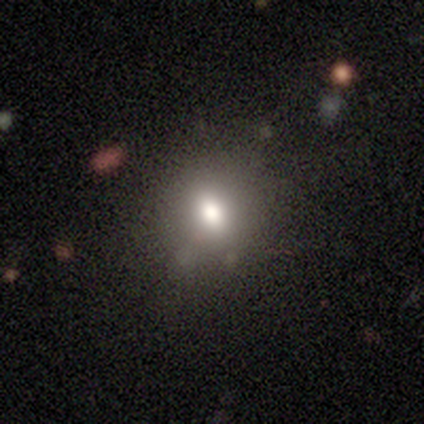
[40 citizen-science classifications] A smooth galaxy with no disk features (52%) that is round (52%). Merging: none (91%).